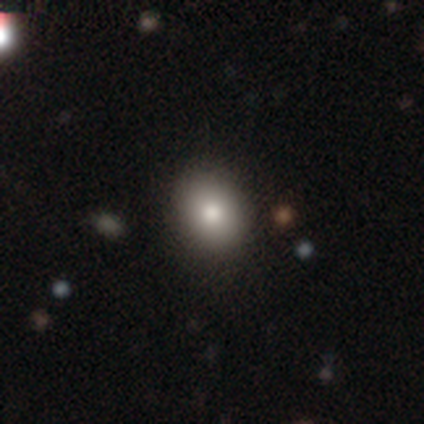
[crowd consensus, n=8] This is likely a smooth galaxy (75%). How rounded: likely in between (67%). Merging: clearly none (100%).